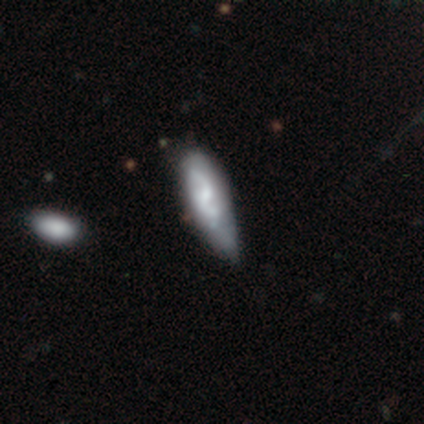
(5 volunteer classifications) Volunteers were most divided on "smooth or featured" (2-way tie): smooth: 40%, featured or disk: 40%, star or artifact: 20%. More confident: how rounded — in between (100%); merging — minor disturbance (50%).